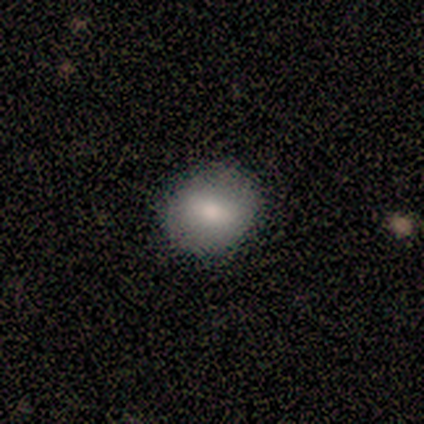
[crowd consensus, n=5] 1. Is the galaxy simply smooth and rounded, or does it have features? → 100% smooth, 0% featured or disk, 0% star or artifact.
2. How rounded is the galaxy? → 60% round, 40% in between, 0% cigar-shaped.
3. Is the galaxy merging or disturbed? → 100% none, 0% minor disturbance, 0% major disturbance, 0% merger.